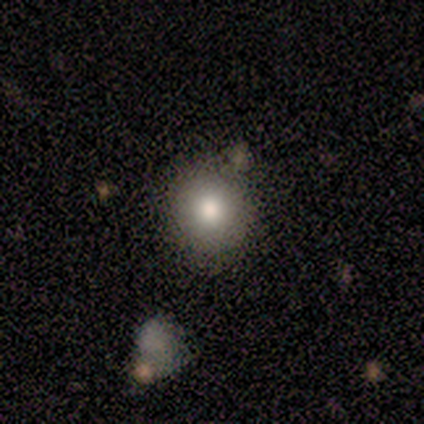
Volunteers were most divided on "how rounded": round: 71%, in between: 29%, cigar-shaped: 0%. More confident: merging — none (89%); smooth or featured — smooth (70%).